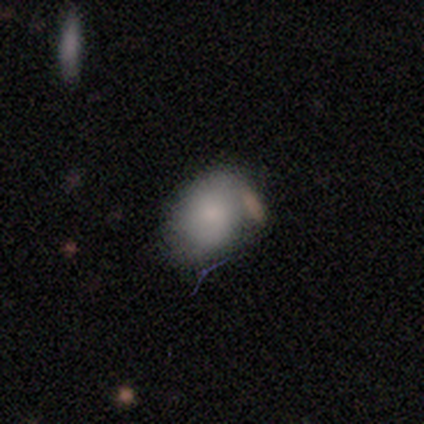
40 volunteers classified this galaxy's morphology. A smooth galaxy with no disk features (88%) that is in between round and cigar-shaped (54%). Merging: none (50%).